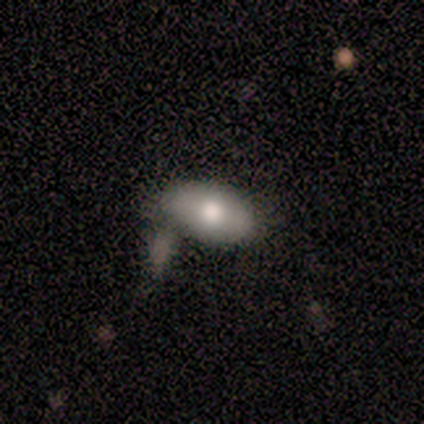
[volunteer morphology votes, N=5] Q: Smooth or featured?
A: smooth (80%); runner-up: featured or disk (20%)
Q: How rounded?
A: in between (100%)
Q: Merging?
A: none (40%); tied with: minor disturbance (40%)